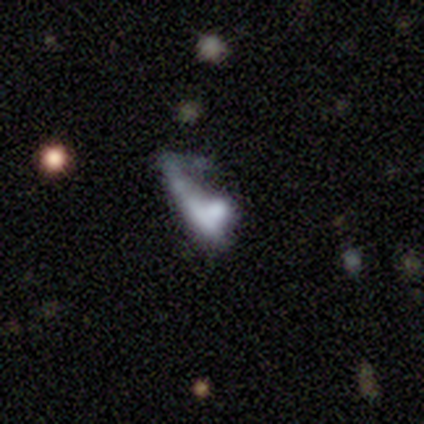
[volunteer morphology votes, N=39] This is marginally a featured or disk galaxy (44%). It is possibly not viewed edge-on (59%). Bar: clearly no (100%). Spiral arm pattern: clearly no (90%). Central bulge: marginally moderate (40%, tied with none). Merging: marginally merger (38%).